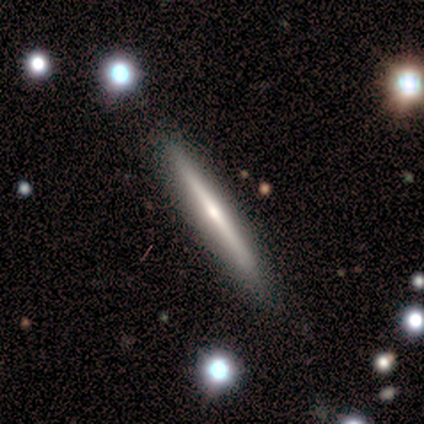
Smooth or featured? 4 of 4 (100%) said featured or disk. Edge-on disk? 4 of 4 (100%) said yes. Edge-on bulge? 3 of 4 (75%) said rounded. Merging? 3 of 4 (75%) said none.